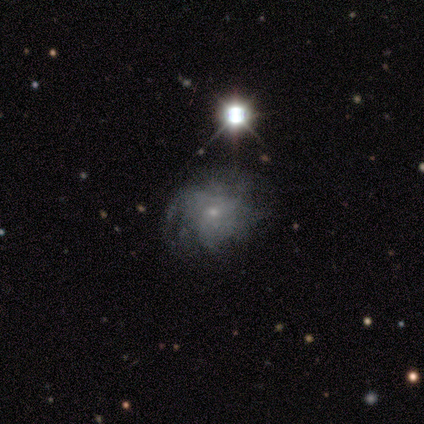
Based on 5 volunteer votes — Volunteers were most divided on "spiral arms" (2-way tie): yes: 50%, no: 50%; "spiral winding" (2-way tie): tight: 50%, medium: 50%, loose: 0%; "spiral arm count" (2-way tie): more than 4: 50%, can't tell: 50%, 1: 0%, 2: 0%, 3: 0%, 4: 0%; "merging" (2-way tie): none: 50%, major disturbance: 50%, minor disturbance: 0%, merger: 0%. More confident: edge-on disk — no (100%); bar — no (100%); bulge size — small (100%); smooth or featured — featured or disk (80%).